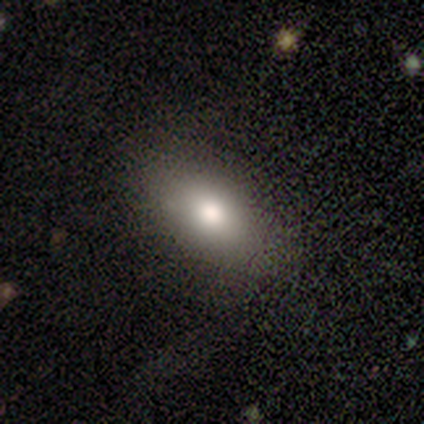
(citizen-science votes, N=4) A smooth galaxy with no disk features (100%) that is in between round and cigar-shaped (100%).

Vote fractions:
- Smooth or featured? smooth: 100% / featured or disk: 0% / star or artifact: 0%
- How rounded? in between: 100% / round: 0% / cigar-shaped: 0%
- Merging? none: 100% / minor disturbance: 0% / major disturbance: 0% / merger: 0%